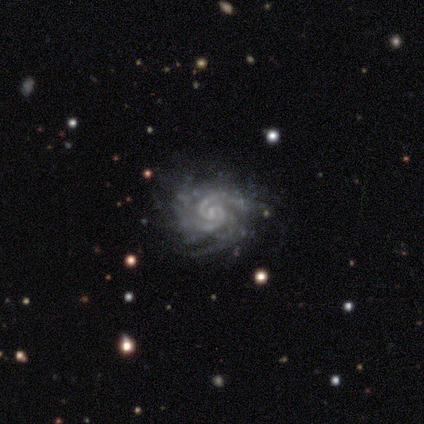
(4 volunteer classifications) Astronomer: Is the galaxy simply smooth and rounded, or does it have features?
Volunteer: featured or disk — 100%.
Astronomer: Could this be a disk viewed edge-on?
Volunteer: no — 100%.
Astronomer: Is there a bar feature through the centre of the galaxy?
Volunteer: no — 75%.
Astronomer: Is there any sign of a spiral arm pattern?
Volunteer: yes — 100%.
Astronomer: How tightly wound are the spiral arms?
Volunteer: tight — 75%.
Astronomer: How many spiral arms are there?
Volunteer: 3 — 50%, tied with can't tell at 50%.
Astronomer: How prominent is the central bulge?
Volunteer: moderate — 50%, tied with small at 50%.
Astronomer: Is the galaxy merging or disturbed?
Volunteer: none — 75%.